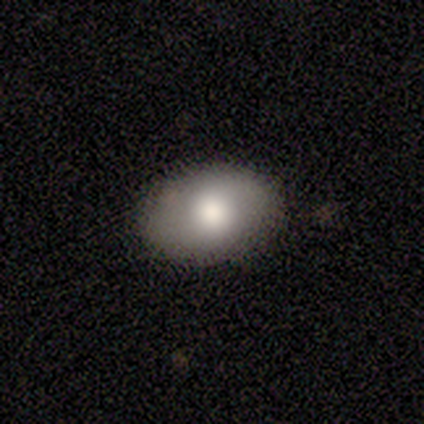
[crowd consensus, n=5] A smooth galaxy with no disk features (100%) that is in between round and cigar-shaped (60%). Merging: none (100%).